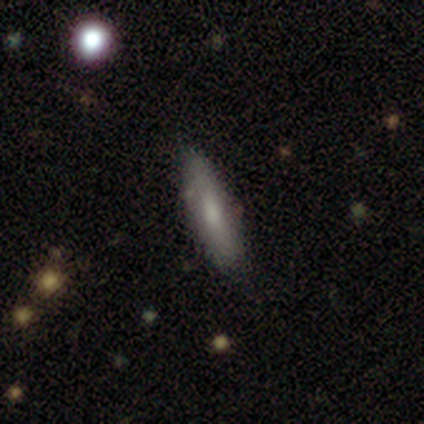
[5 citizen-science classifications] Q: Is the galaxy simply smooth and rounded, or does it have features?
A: smooth — 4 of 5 (80%).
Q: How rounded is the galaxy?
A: cigar-shaped — 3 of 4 (75%).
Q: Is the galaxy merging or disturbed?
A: none — 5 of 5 (100%).